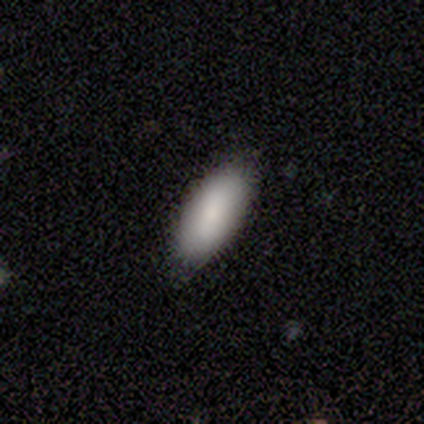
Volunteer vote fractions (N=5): Overall: smooth (100%). How rounded: in between (100%). Merging: none (80%).